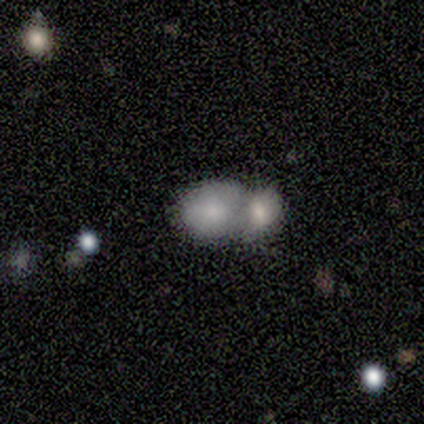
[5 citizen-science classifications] Smooth or featured: smooth — 40% (tied with star or artifact — 40%)
How rounded: round — 50% (tied with in between — 50%)
Merging: merger — 100%